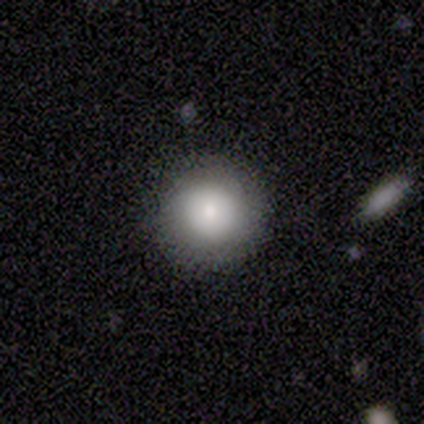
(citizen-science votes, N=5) Smooth or featured: smooth — 80% (featured or disk — 20%)
How rounded: round — 100%
Merging: none — 100%